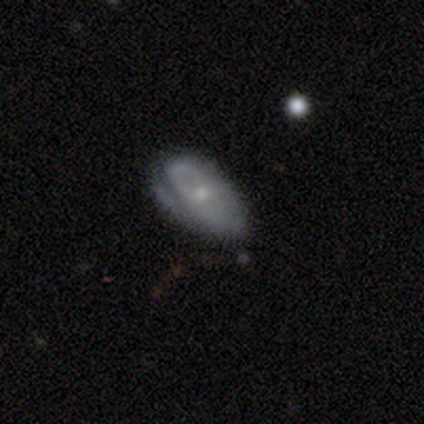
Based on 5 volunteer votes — featured or disk 60%, smooth 40%, star or artifact 0%. Down the decision tree: edge-on disk — no (67%); bar — strong (50%, tied with no); spiral arms — yes (50%, tied with no); spiral arm count — can't tell (100%); spiral winding — medium (100%); bulge size — moderate (50%, tied with small); merging — none (40%, tied with minor disturbance).